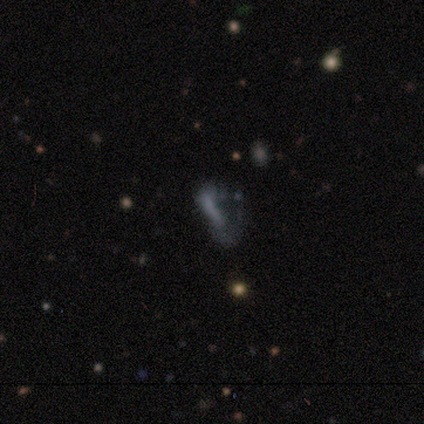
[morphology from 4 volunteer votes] Smooth or featured? smooth (50%, tied with featured or disk)
How rounded? in between (100%)
Merging? minor disturbance (50%)